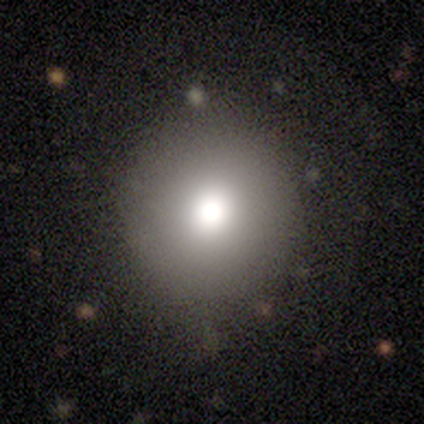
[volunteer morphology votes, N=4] smooth_or_featured: smooth (p=0.75) [alt: star or artifact p=0.25]
how_rounded: round (p=1.00)
merging: none (p=1.00)